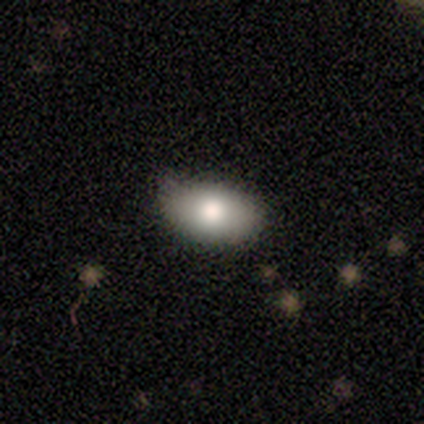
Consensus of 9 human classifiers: smooth-or-featured: smooth: 100% | featured or disk: 0% | star or artifact: 0%
  how-rounded: in between: 78% | round: 11% | cigar-shaped: 11%
  merging: none: 78% | minor disturbance: 11% | merger: 11% | major disturbance: 0%